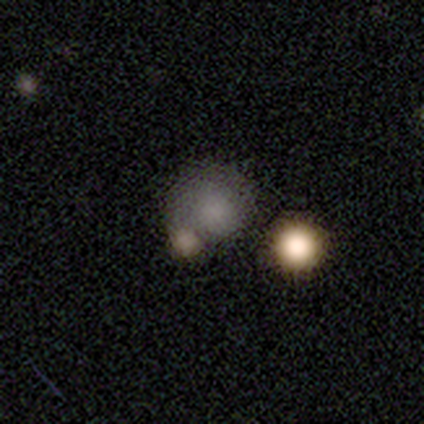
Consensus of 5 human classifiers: Morphology: type=smooth (60%); roundness=round (100%); merging=none (33%, tied with minor disturbance and merger).